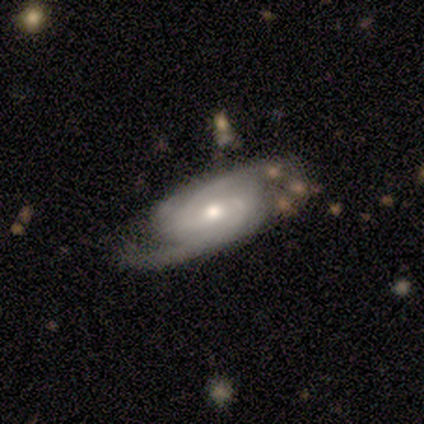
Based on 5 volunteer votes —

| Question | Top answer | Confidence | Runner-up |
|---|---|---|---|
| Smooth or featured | featured or disk | 60% | star or artifact (40%) |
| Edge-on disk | no | 100% | — |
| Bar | weak | 100% | — |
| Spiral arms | yes | 100% | — |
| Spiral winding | medium | 67% | tight (33%) |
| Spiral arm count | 2 | 67% | can't tell (33%) |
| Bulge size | moderate | 100% | — |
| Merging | none | 67% | merger (33%) |